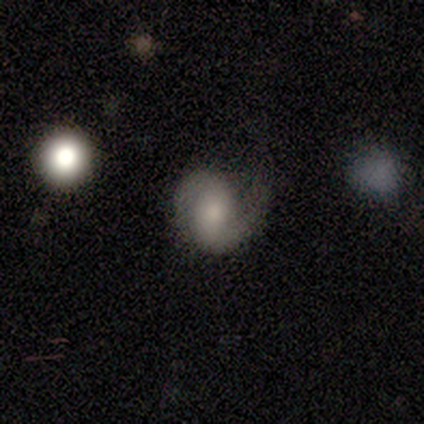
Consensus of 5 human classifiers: Smooth or featured?
  - featured or disk: 80% *
  - smooth: 20%
  - star or artifact: 0%
Edge-on disk?
  - no: 100% *
  - yes: 0%
Bar?
  - no: 50% *
  - strong: 25%
  - weak: 25%
Spiral arms?
  - yes: 100% *
  - no: 0%
Spiral winding?
  - medium: 100% *
  - tight: 0%
  - loose: 0%
Spiral arm count?
  - 2: 100% *
  - 1: 0%
  - 3: 0%
  - 4: 0%
  - more than 4: 0%
  - can't tell: 0%
Bulge size?
  - dominant: 25% * (tied)
  - moderate: 25% * (tied)
  - small: 25% * (tied)
  - none: 25% * (tied)
  - large: 0%
Merging?
  - minor disturbance: 40% * (tied)
  - major disturbance: 40% * (tied)
  - none: 20%
  - merger: 0%